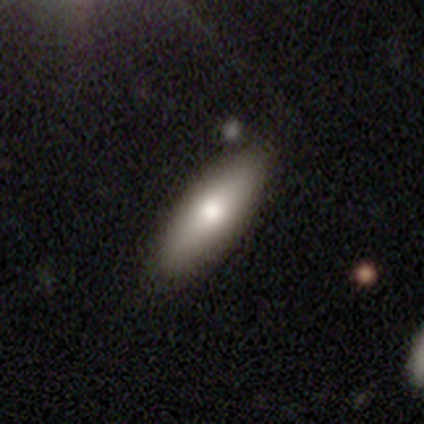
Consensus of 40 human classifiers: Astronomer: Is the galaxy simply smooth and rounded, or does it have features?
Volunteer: smooth — 75%.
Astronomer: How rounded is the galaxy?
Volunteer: in between — 73%.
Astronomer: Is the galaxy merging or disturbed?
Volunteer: none — 80%.